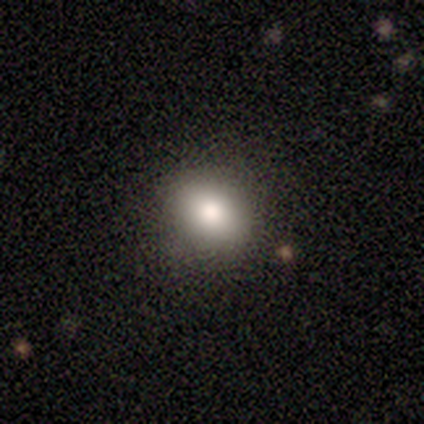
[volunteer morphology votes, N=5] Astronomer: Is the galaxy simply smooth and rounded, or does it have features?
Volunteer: smooth — 100%.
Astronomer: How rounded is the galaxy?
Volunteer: round — 60% (runner-up: in between, 40%).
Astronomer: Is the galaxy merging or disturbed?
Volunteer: none — 80%.